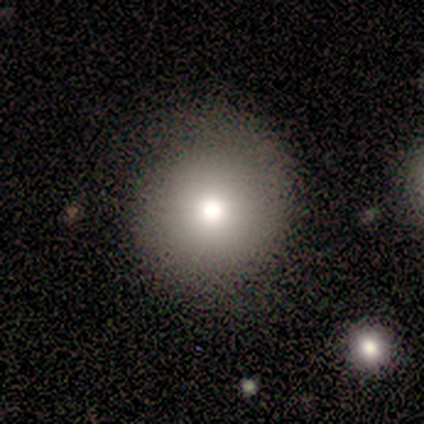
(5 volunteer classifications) smooth-or-featured: smooth: 40% (tied) | featured or disk: 40% (tied) | star or artifact: 20%
  how-rounded: round: 100% | in between: 0% | cigar-shaped: 0%
  merging: none: 100% | minor disturbance: 0% | major disturbance: 0% | merger: 0%